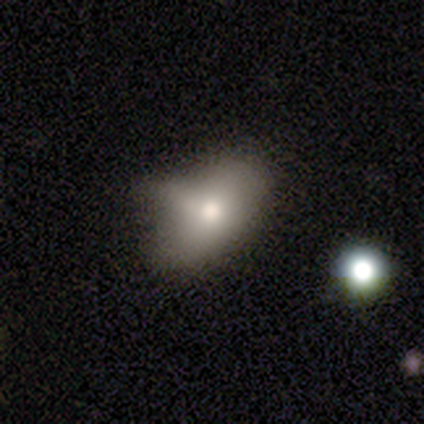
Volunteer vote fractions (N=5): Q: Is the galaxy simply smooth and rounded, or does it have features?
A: featured or disk — 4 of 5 (80%).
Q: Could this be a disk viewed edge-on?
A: no — 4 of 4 (100%).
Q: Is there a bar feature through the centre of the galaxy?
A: no — 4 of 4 (100%).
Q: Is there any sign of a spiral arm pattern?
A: no — 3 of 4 (75%).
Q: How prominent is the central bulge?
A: moderate — 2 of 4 (50%).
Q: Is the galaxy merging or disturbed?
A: minor disturbance — 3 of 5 (60%).